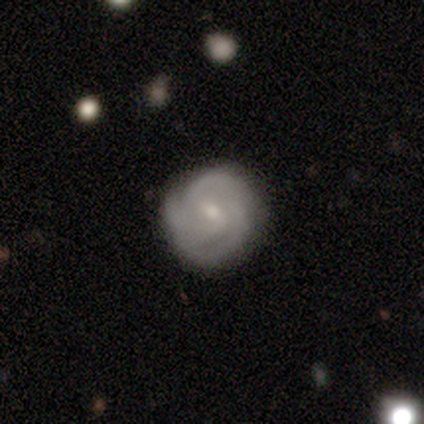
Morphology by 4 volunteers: featured or disk 100%, smooth 0%, star or artifact 0%. Down the decision tree: edge-on disk — no (100%); bar — weak (100%); spiral arms — yes (100%); spiral arm count — 3 (50%, tied with can't tell); spiral winding — tight (50%, tied with medium); bulge size — small (75%); merging — none (100%).